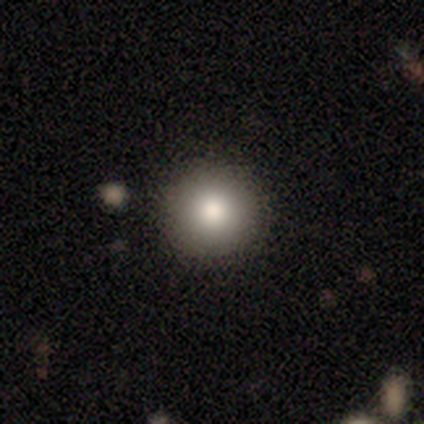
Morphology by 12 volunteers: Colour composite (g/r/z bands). It shows a smooth galaxy with no disk features (75%) that is round (89%). Merging: none (92%).